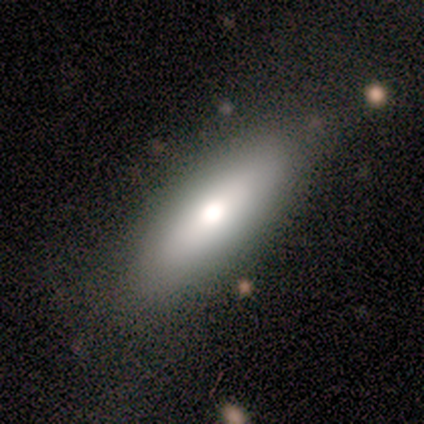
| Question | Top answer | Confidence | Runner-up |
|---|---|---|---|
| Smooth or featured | smooth | 50% | tied: star or artifact (50%) |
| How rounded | in between | 100% | — |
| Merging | minor disturbance | 100% | — |